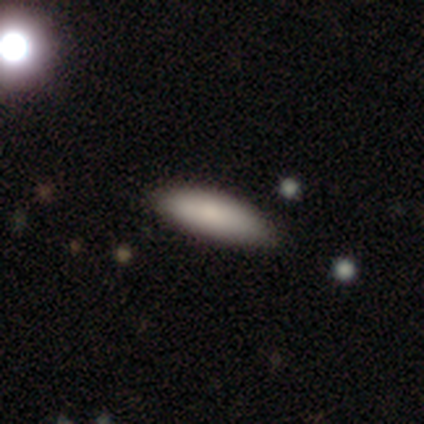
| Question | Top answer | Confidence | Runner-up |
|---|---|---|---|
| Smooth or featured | smooth | 87% | featured or disk (10%) |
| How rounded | cigar-shaped | 62% | in between (38%) |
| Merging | none | 89% | minor disturbance (11%) |